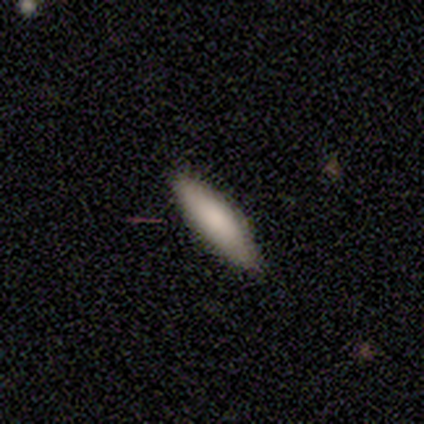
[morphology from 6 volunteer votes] Q: Smooth or featured?
A: smooth (83%); runner-up: featured or disk (17%)
Q: How rounded?
A: cigar-shaped (80%); runner-up: in between (20%)
Q: Merging?
A: none (100%)